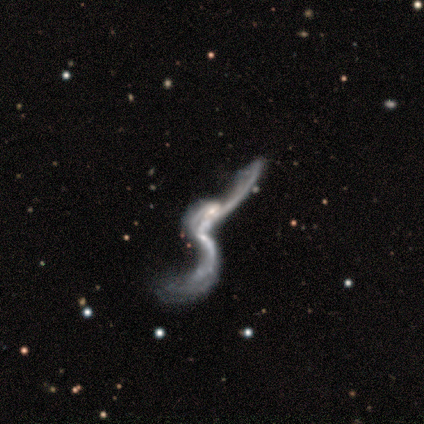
A featured or disk galaxy (92%) with no bar (53%), 2 (73%) loose (96%) spiral arms (58%) and a small central bulge (49%). Merging: merger (51%).